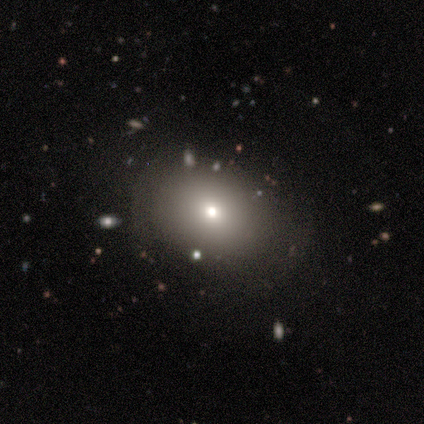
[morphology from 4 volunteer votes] Q: Smooth or featured?
A: smooth (100%)
Q: How rounded?
A: in between (100%)
Q: Merging?
A: none (100%)